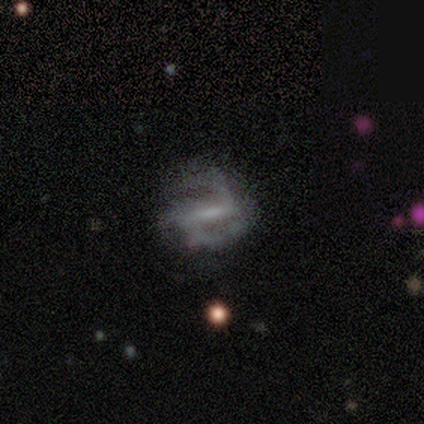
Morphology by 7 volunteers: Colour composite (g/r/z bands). It shows a featured or disk galaxy (86%) with a weak bar (83%), 2 (60%) medium (60%) spiral arms (83%) and no central bulge (67%). Merging: none (50%, tied with minor disturbance).